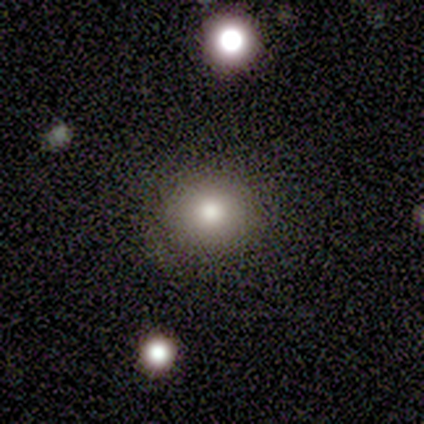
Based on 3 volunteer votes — Morphology: type=smooth (67%); roundness=round (100%); merging=none (100%).